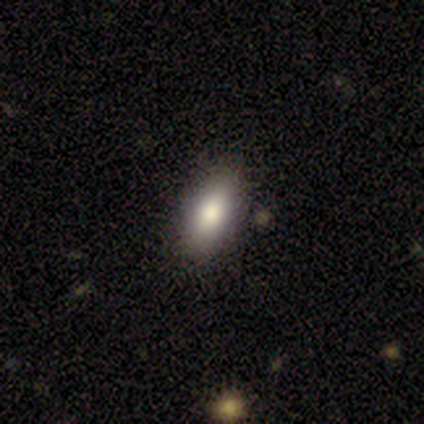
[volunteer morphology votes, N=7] Q: Smooth or featured?
A: smooth (86%); runner-up: star or artifact (14%)
Q: How rounded?
A: in between (83%); runner-up: cigar-shaped (17%)
Q: Merging?
A: none (67%); runner-up: minor disturbance (33%)